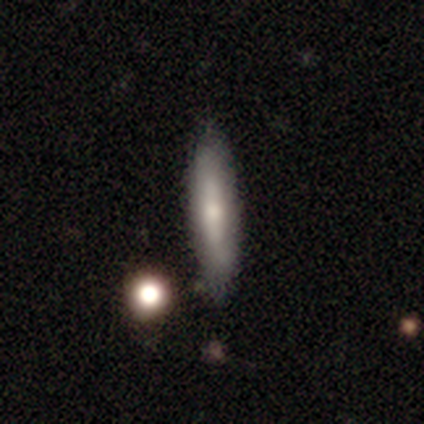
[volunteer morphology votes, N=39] Overall: smooth (54%; featured or disk 41%). How rounded: cigar-shaped (95%). Merging: none (81%).